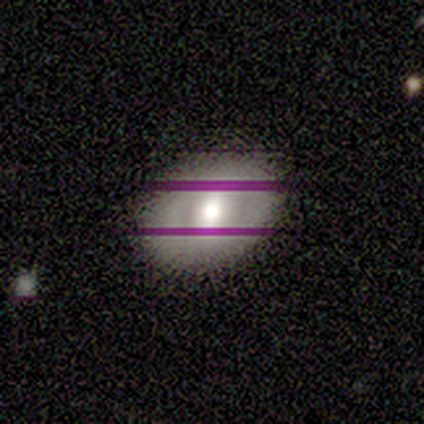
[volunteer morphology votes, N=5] Smooth or featured?
  - smooth: 60% *
  - featured or disk: 20%
  - star or artifact: 20%
How rounded?
  - in between: 67% *
  - round: 33%
  - cigar-shaped: 0%
Merging?
  - none: 100% *
  - minor disturbance: 0%
  - major disturbance: 0%
  - merger: 0%